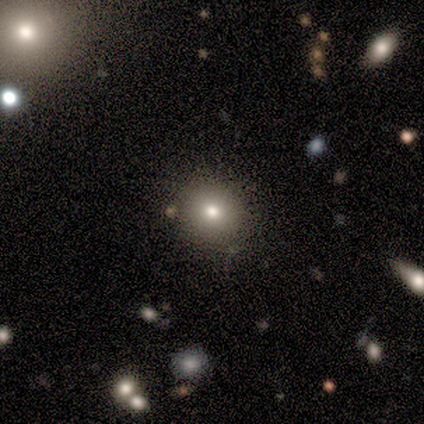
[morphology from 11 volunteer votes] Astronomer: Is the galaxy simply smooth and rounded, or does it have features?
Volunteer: smooth — 82%.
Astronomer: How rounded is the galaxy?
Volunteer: round — 89%.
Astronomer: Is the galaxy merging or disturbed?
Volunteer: none — 73%.